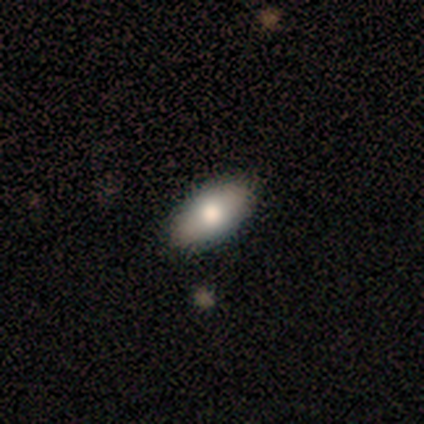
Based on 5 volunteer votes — Q: Smooth or featured?
A: smooth (60%); runner-up: featured or disk (40%)
Q: How rounded?
A: in between (100%)
Q: Merging?
A: none (100%)